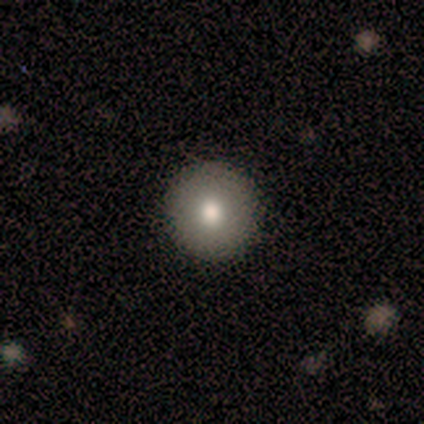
A smooth galaxy with no disk features (80%) that is round (100%). Merging: none (100%).